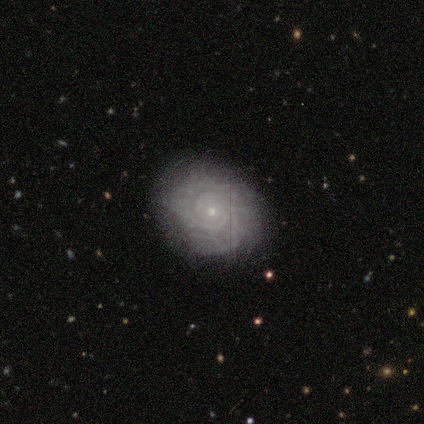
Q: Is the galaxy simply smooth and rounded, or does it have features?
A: featured or disk — 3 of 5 (60%).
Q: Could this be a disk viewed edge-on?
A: no — 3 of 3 (100%).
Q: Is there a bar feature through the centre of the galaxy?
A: no — 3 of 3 (100%).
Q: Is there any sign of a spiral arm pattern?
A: yes — 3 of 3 (100%).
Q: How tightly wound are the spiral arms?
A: tight — 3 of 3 (100%).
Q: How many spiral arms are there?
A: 2 — 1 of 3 (33%, tied with more than 4 and can't tell).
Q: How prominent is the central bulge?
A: small — 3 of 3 (100%).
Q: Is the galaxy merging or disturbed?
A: none — 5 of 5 (100%).